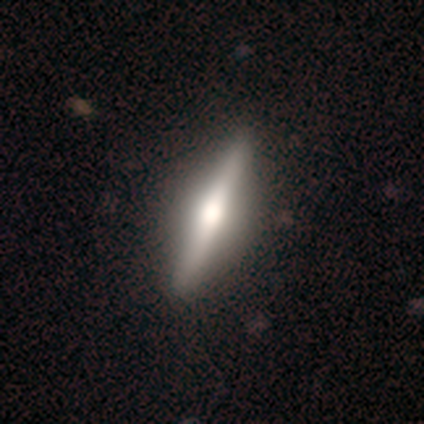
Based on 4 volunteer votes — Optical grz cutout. It shows a featured or disk galaxy (100%) viewed edge-on (100%) with a rounded central bulge (75%). Merging: none (100%).